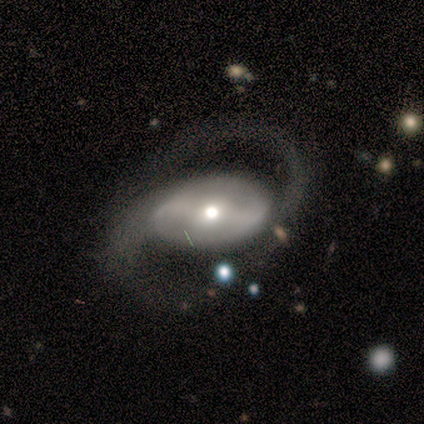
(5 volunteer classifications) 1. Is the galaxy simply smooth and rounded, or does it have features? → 100% featured or disk, 0% smooth, 0% star or artifact.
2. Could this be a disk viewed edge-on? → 100% no, 0% yes.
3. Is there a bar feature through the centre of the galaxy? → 40% strong (tied), 40% weak (tied), 20% no.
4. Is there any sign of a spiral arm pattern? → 100% yes, 0% no.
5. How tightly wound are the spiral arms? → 60% medium, 20% tight, 20% loose.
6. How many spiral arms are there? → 100% 2, 0% 1, 0% 3, 0% 4, 0% more than 4, 0% can't tell.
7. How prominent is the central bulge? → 100% moderate, 0% dominant, 0% large, 0% small, 0% none.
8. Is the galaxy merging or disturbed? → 80% none, 20% minor disturbance, 0% major disturbance, 0% merger.